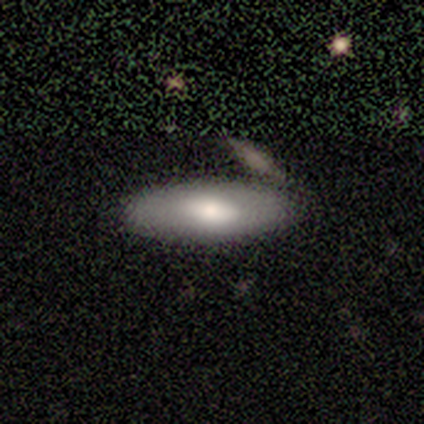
Q: Smooth or featured?
A: smooth (80%); runner-up: featured or disk (20%)
Q: How rounded?
A: in between (50%); tied with: cigar-shaped (50%)
Q: Merging?
A: none (100%)